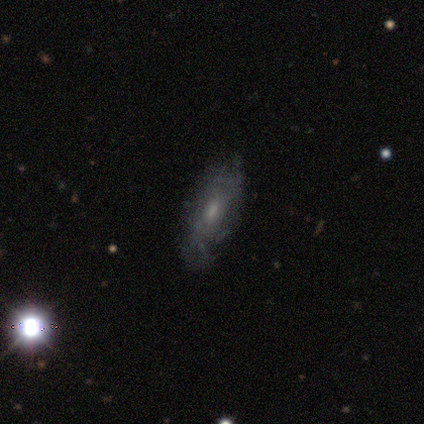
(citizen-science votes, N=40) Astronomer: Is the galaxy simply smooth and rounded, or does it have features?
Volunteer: featured or disk — 55% (runner-up: smooth, 40%).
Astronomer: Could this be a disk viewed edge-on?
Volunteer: no — 86%.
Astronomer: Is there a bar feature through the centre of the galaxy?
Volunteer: no — 63%.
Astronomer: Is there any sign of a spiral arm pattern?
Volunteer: no — 58% (runner-up: yes, 42%).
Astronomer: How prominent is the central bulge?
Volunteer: moderate — 47%, tied with small at 47%.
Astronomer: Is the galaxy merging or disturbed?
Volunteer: none — 66%.